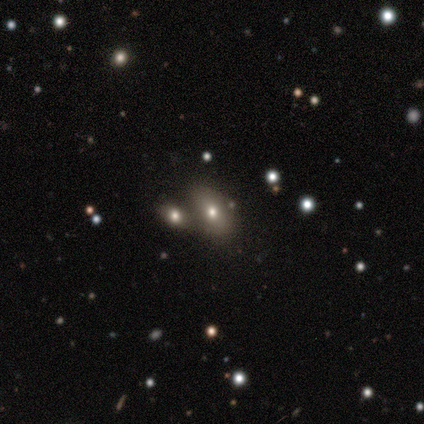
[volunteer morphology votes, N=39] smooth-or-featured: smooth: 38% | featured or disk: 33% | star or artifact: 28%
  how-rounded: in between: 93% | round: 7% | cigar-shaped: 0%
  merging: merger: 50% | none: 36% | minor disturbance: 11% | major disturbance: 4%